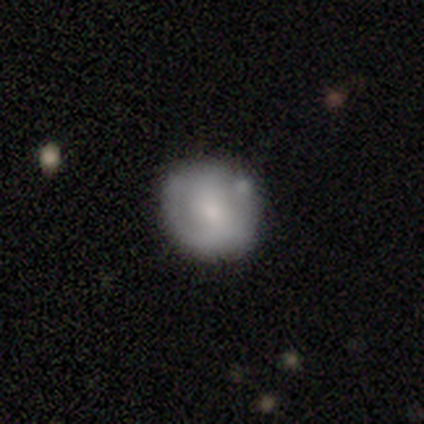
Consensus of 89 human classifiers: Smooth or featured: smooth — 60% (featured or disk — 35%)
How rounded: round — 79% (in between — 19%)
Merging: none — 73% (minor disturbance — 18%)